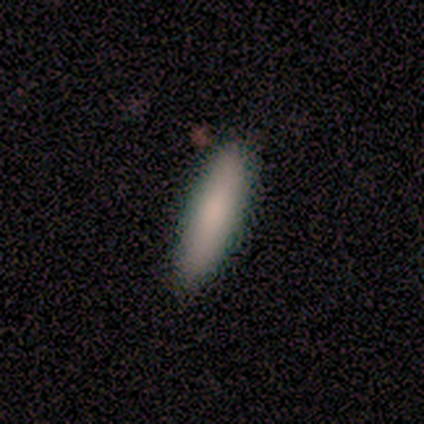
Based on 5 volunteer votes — Overall: smooth (80%). How rounded: cigar-shaped (100%). Merging: none (100%).